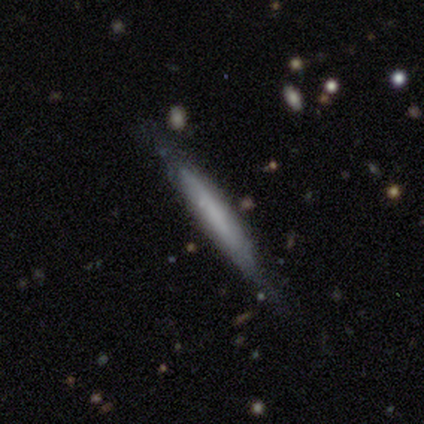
smooth_or_featured: featured or disk (p=0.60) [alt: smooth p=0.40]
disk_edge_on: yes (p=0.67) [alt: no p=0.33]
edge_on_bulge: none (p=1.00)
merging: none (p=0.60) [alt: minor disturbance p=0.40]